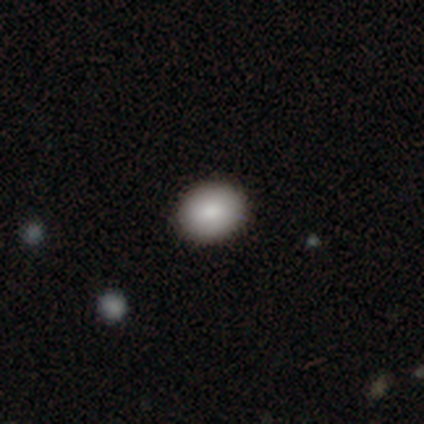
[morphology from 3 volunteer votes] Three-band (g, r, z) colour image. It shows a smooth galaxy with no disk features (67%) that is round (50%, tied with in between). Merging: none (67%).